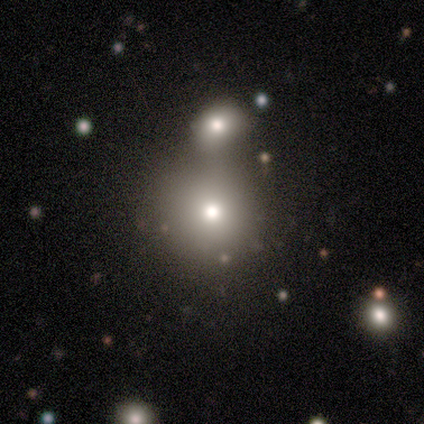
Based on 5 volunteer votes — smooth 40% (tied), star or artifact 40% (tied), featured or disk 20%. Down the decision tree: how rounded — round (100%); merging — none (33%, tied with minor disturbance and merger).